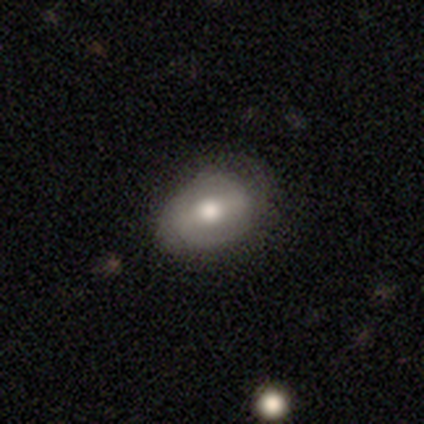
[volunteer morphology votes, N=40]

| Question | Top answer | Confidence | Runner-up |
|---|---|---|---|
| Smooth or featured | featured or disk | 50% | smooth (48%) |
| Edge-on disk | no | 95% | yes (5%) |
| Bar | weak | 53% | strong (37%) |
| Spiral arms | yes | 53% | no (47%) |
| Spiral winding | tight | 70% | loose (20%) |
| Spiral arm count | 2 | 70% | can't tell (30%) |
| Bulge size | moderate | 63% | large (37%) |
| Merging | none | 56% | minor disturbance (23%) |